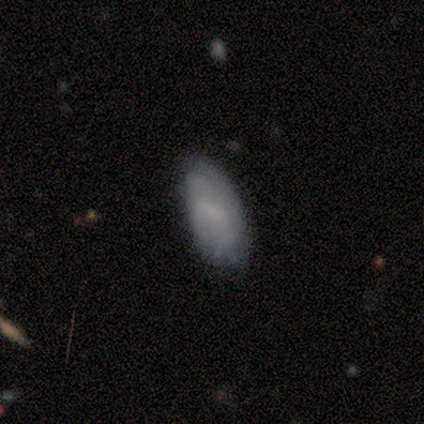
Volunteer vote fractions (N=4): smooth 50% (tied), featured or disk 50% (tied), star or artifact 0%. Down the decision tree: how rounded — in between (100%); merging — none (75%).